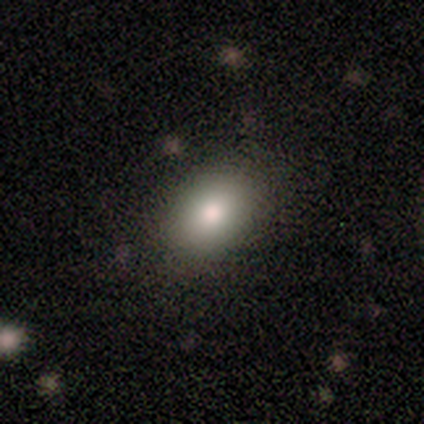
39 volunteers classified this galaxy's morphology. Smooth or featured? 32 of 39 (82%) said smooth. How rounded? 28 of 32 (88%) said in between. Merging? 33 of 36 (92%) said none.